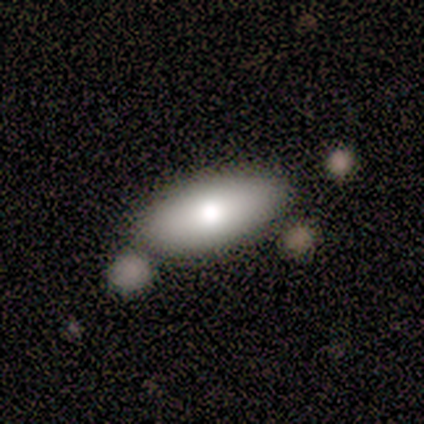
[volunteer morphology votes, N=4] Smooth or featured? 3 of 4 (75%) said smooth. How rounded? 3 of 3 (100%) said in between. Merging? 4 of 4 (100%) said none.